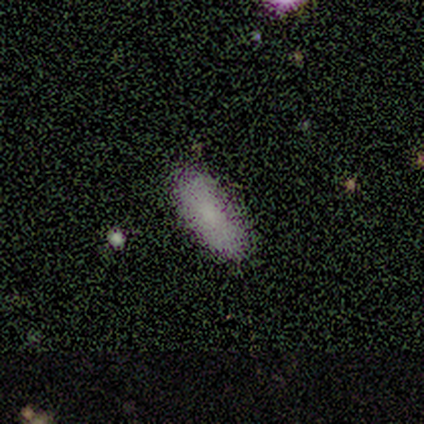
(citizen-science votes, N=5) This appears to be a smooth galaxy with no disk features (100%) that is in between round and cigar-shaped (80%). Merging: none (60%).